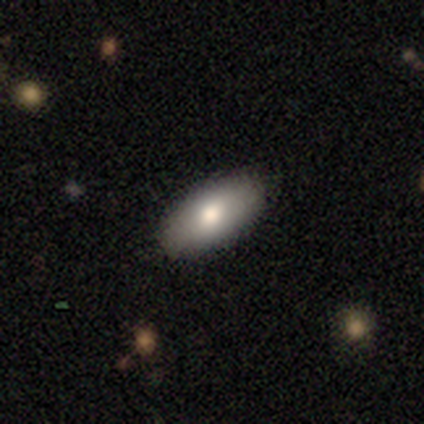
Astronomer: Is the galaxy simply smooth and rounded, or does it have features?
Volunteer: smooth — 80%.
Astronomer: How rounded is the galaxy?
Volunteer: in between — 100%.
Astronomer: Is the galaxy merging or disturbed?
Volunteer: none — 100%.